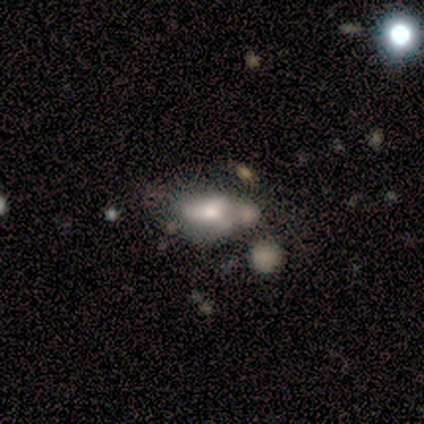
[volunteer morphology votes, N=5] Smooth or featured? smooth (80%)
How rounded? in between (100%)
Merging? minor disturbance (40%, tied with major disturbance)